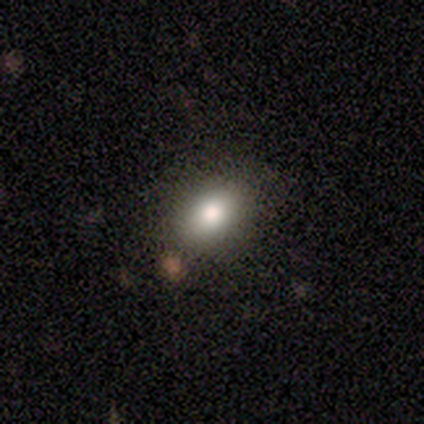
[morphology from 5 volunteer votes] Smooth or featured: smooth — 80% (star or artifact — 20%)
How rounded: in between — 100%
Merging: none — 100%